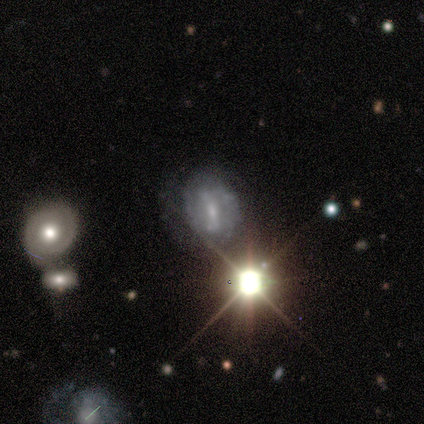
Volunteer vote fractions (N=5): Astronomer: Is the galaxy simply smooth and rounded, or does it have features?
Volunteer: featured or disk — 60% (runner-up: star or artifact, 40%).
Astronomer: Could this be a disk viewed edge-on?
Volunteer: no — 100%.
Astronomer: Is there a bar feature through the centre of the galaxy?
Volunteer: weak — 67%.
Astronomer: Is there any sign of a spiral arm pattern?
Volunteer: no — 67%.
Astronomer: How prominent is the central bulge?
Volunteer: large — 33%, tied with moderate and none at 33%.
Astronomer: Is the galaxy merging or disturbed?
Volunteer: none — 67%.